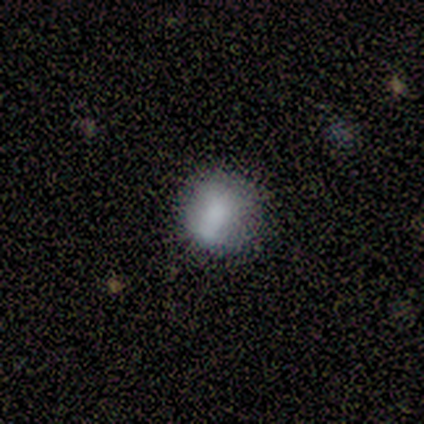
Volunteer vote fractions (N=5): Morphology: type=smooth (60%); roundness=round (100%); merging=none (75%).